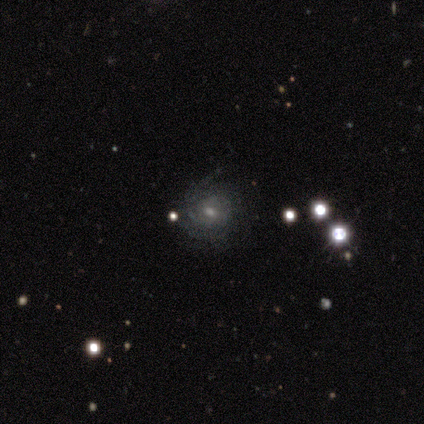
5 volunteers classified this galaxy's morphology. Overall: featured or disk (80%). Edge-on disk: no (100%). Bar: no (75%). Spiral arms: yes (75%). Spiral arm count: can't tell (67%; more than 4 33%). Spiral winding: tight (67%; medium 33%). Bulge size: moderate (75%). Merging: none (60%; minor disturbance 20%).